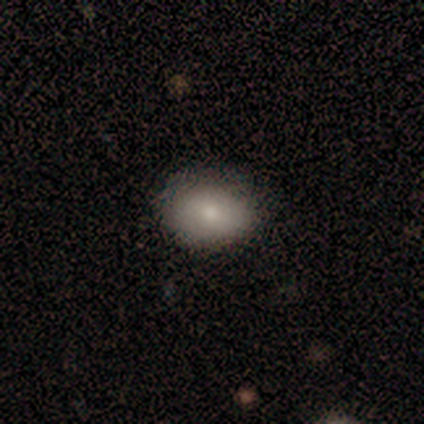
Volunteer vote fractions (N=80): Volunteers were most divided on "merging": none: 44%, minor disturbance: 5%, merger: 1%, major disturbance: 0%. More confident: how rounded — in between (81%); smooth or featured — smooth (79%).